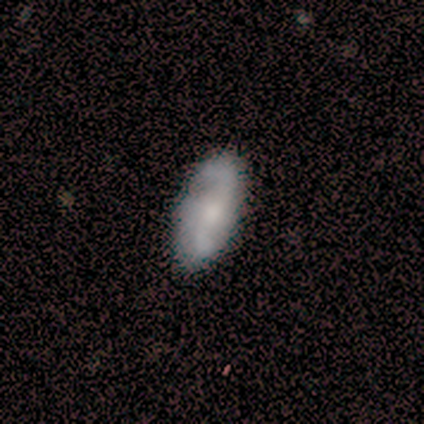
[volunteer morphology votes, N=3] Q: Smooth or featured?
A: featured or disk (67%); runner-up: smooth (33%)
Q: Edge-on disk?
A: no (100%)
Q: Bar?
A: weak (100%)
Q: Spiral arms?
A: yes (100%)
Q: Spiral winding?
A: loose (100%)
Q: Spiral arm count?
A: 2 (100%)
Q: Bulge size?
A: dominant (50%); tied with: none (50%)
Q: Merging?
A: none (100%)